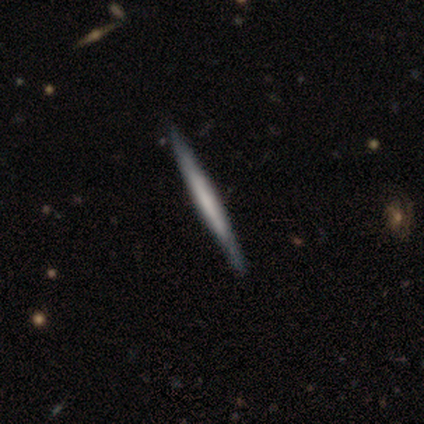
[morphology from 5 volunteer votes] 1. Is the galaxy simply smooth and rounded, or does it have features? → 80% featured or disk, 20% smooth, 0% star or artifact.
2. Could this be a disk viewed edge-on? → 100% yes, 0% no.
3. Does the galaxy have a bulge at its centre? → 75% none, 25% boxy, 0% rounded.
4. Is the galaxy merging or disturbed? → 100% none, 0% minor disturbance, 0% major disturbance, 0% merger.